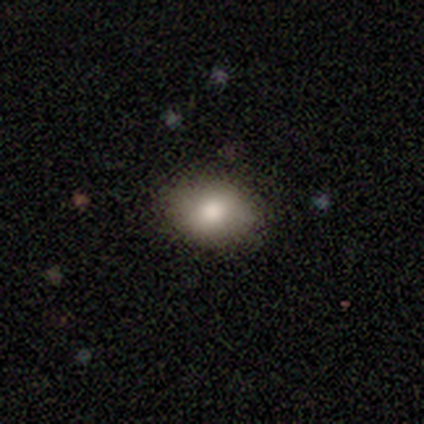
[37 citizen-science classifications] This is clearly a smooth galaxy (81%). How rounded: likely in between (67%). Merging: clearly none (97%).